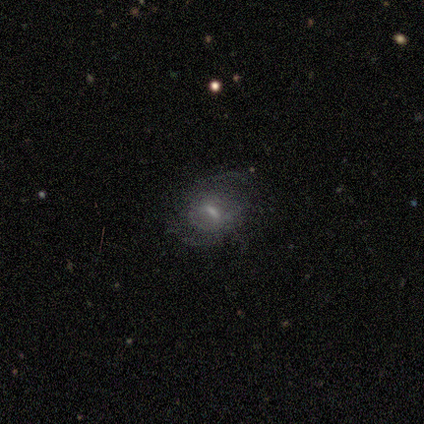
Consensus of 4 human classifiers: This is likely a featured or disk galaxy (75%). It is clearly not viewed edge-on (100%). Bar: likely strong (67%). Spiral arm pattern: clearly yes (100%). Spiral arm count: likely can't tell (67%). Spiral winding: likely loose (67%). Central bulge: likely moderate (67%). Merging: possibly none (50%, tied with minor disturbance).